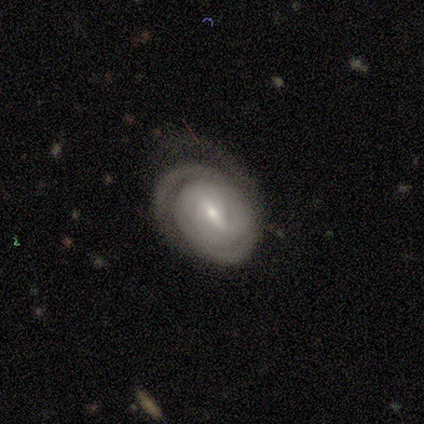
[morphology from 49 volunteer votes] Smooth or featured?
  - featured or disk: 78% *
  - smooth: 18%
  - star or artifact: 4%
Edge-on disk?
  - no: 97% *
  - yes: 3%
Bar?
  - weak: 65% *
  - strong: 27%
  - no: 8%
Spiral arms?
  - yes: 95% *
  - no: 5%
Spiral winding?
  - tight: 69% *
  - medium: 26%
  - loose: 6%
Spiral arm count?
  - 2: 40% * (tied)
  - can't tell: 40% * (tied)
  - 1: 9%
  - 3: 9%
  - 4: 3%
  - more than 4: 0%
Bulge size?
  - small: 54% *
  - moderate: 41%
  - dominant: 5%
  - large: 0%
  - none: 0%
Merging?
  - none: 60% *
  - major disturbance: 21%
  - minor disturbance: 19%
  - merger: 0%